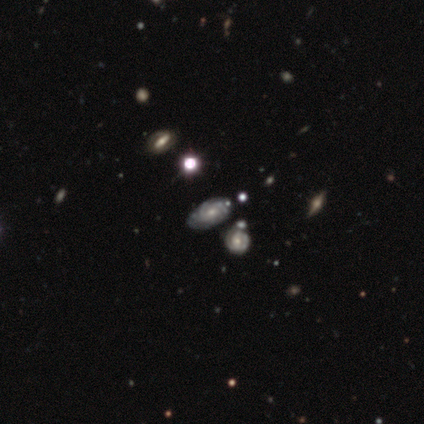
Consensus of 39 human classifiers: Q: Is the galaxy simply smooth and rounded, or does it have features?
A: featured or disk — 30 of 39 (77%).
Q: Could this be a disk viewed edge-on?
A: no — 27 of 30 (90%).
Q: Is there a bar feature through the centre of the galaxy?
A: no — 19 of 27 (70%).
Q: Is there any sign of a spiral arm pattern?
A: yes — 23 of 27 (85%).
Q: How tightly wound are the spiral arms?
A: tight — 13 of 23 (57%).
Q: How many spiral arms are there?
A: can't tell — 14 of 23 (61%).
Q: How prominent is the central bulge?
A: moderate — 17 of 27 (63%).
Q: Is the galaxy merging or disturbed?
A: merger — 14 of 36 (39%).